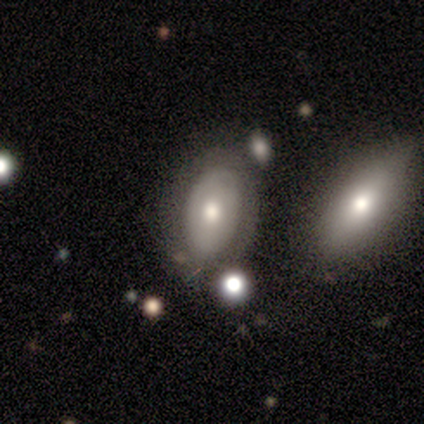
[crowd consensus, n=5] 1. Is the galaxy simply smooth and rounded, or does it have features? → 80% smooth, 20% featured or disk, 0% star or artifact.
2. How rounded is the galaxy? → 100% in between, 0% round, 0% cigar-shaped.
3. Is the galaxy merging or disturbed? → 80% none, 20% merger, 0% minor disturbance, 0% major disturbance.